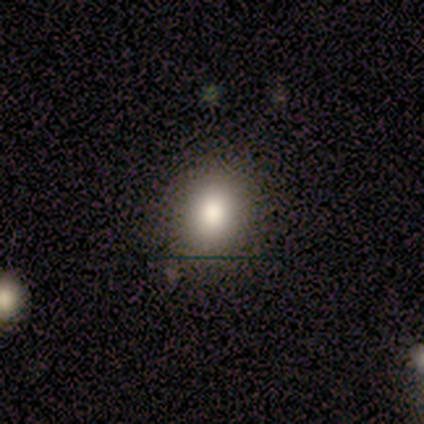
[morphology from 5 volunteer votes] A smooth galaxy with no disk features (80%) that is round (50%, tied with in between). Merging: none (100%).